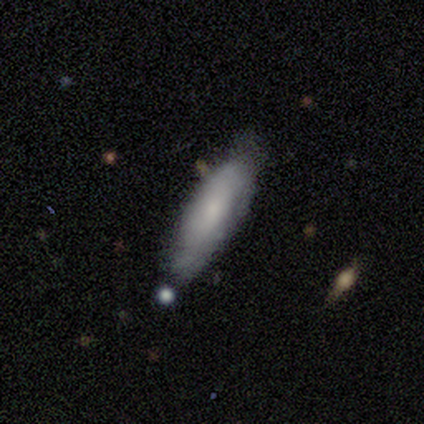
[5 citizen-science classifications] Smooth or featured? smooth (60%)
How rounded? in between (67%)
Merging? none (50%)